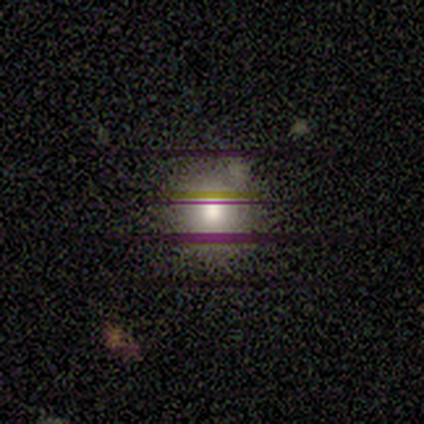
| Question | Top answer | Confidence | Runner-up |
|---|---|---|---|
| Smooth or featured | smooth | 50% | featured or disk (25%) |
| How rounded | round | 100% | — |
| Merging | none | 100% | — |